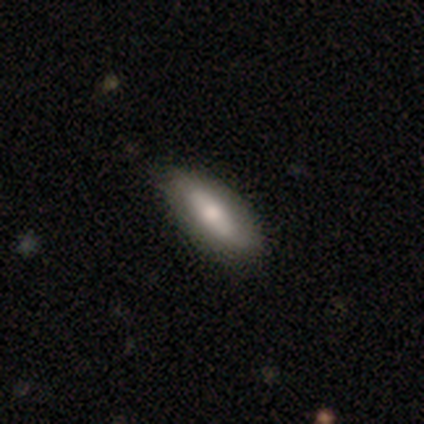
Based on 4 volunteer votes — This appears to be a smooth galaxy with no disk features (75%) that is in between round and cigar-shaped (67%). Merging: none (50%, tied with minor disturbance).